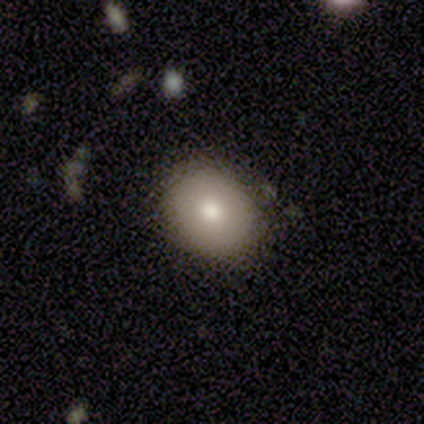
A smooth galaxy with no disk features (100%) that is in between round and cigar-shaped (100%).

Vote fractions:
- Smooth or featured? smooth: 100% / featured or disk: 0% / star or artifact: 0%
- How rounded? in between: 100% / round: 0% / cigar-shaped: 0%
- Merging? none: 80% / minor disturbance: 20% / major disturbance: 0% / merger: 0%